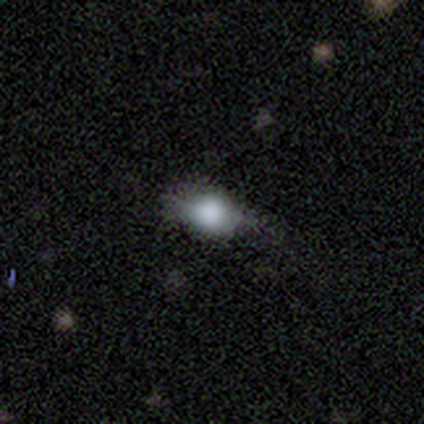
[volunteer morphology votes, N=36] Smooth or featured? smooth (61%)
How rounded? in between (55%)
Merging? none (77%)